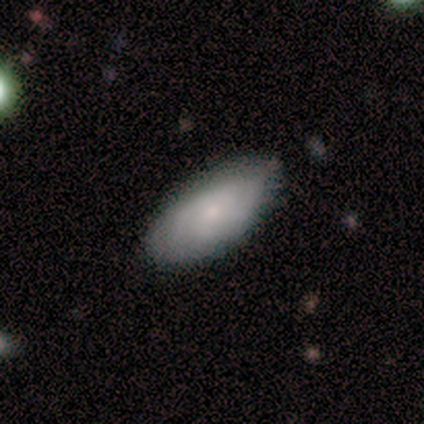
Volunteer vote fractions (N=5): Smooth or featured?
  - smooth: 60% *
  - featured or disk: 40%
  - star or artifact: 0%
How rounded?
  - in between: 100% *
  - round: 0%
  - cigar-shaped: 0%
Merging?
  - none: 60% *
  - minor disturbance: 40%
  - major disturbance: 0%
  - merger: 0%